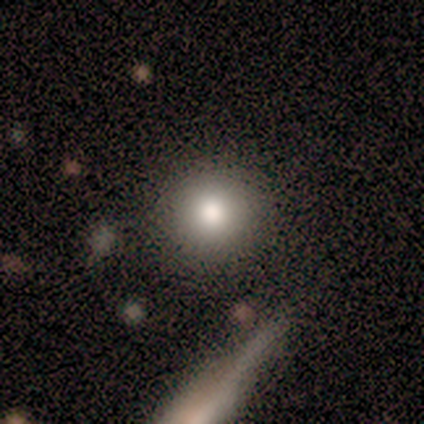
This is clearly a smooth galaxy (100%). How rounded: clearly round (100%). Merging: likely none (67%).